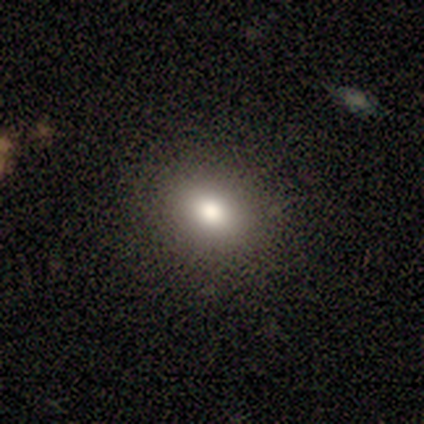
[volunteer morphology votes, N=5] smooth_or_featured: smooth (p=0.80) [alt: star or artifact p=0.20]
how_rounded: round (p=0.75) [alt: in between p=0.25]
merging: none (p=0.75) [alt: minor disturbance p=0.25]